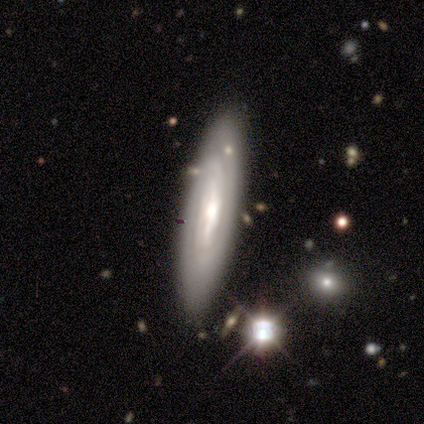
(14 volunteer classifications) Overall: featured or disk (79%). Edge-on disk: no (73%). Bar: strong (62%; weak 38%). Spiral arms: yes (75%). Spiral arm count: can't tell (67%; 2 33%). Spiral winding: tight (67%; medium 33%). Bulge size: moderate (62%; small 25%). Merging: none (86%).